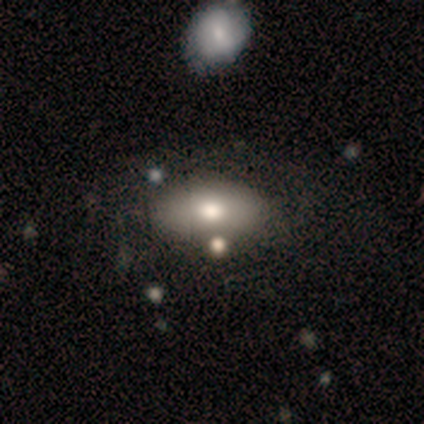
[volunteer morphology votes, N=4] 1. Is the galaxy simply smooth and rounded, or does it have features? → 50% smooth (tied), 50% featured or disk (tied), 0% star or artifact.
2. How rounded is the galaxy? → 100% in between, 0% round, 0% cigar-shaped.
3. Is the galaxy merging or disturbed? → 100% none, 0% minor disturbance, 0% major disturbance, 0% merger.